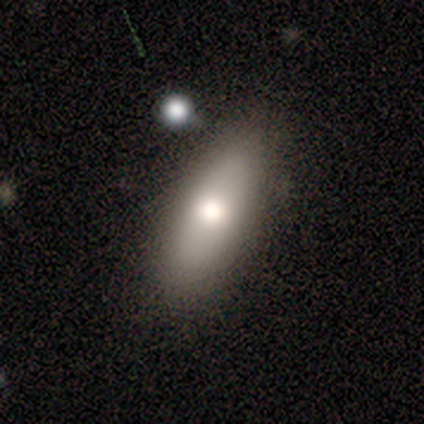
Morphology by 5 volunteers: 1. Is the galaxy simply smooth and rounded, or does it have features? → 80% smooth, 20% star or artifact, 0% featured or disk.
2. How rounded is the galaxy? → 100% in between, 0% round, 0% cigar-shaped.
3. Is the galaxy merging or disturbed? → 100% none, 0% minor disturbance, 0% major disturbance, 0% merger.